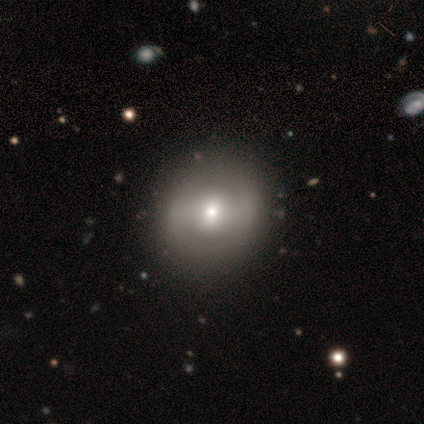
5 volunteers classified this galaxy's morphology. Overall: smooth (60%; featured or disk 40%). How rounded: round (100%). Merging: none (100%).